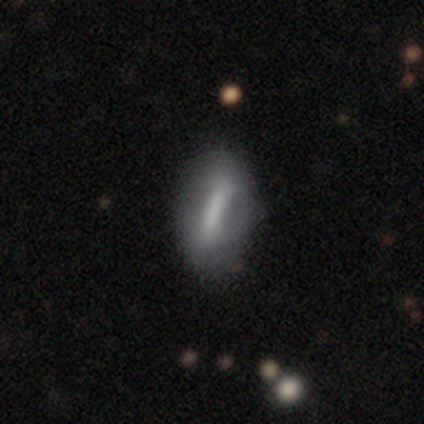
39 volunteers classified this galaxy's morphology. A smooth galaxy with no disk features (49%) that is cigar-shaped (53%).

Vote fractions:
- Smooth or featured? smooth: 49% / featured or disk: 46% / star or artifact: 5%
- How rounded? cigar-shaped: 53% / in between: 47% / round: 0%
- Merging? none: 54% / minor disturbance: 16% / major disturbance: 5% / merger: 0%